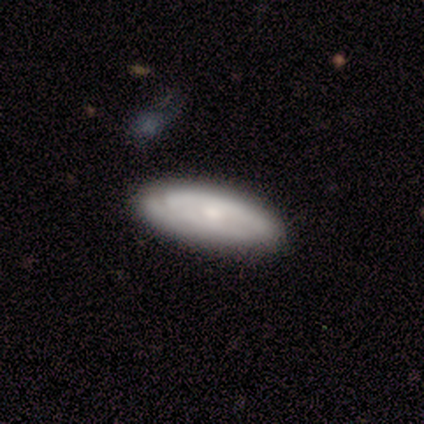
Smooth or featured?
  - featured or disk: 80% *
  - smooth: 20%
  - star or artifact: 0%
Edge-on disk?
  - no: 100% *
  - yes: 0%
Bar?
  - no: 75% *
  - strong: 25%
  - weak: 0%
Spiral arms?
  - yes: 100% *
  - no: 0%
Spiral winding?
  - tight: 50% * (tied)
  - medium: 50% * (tied)
  - loose: 0%
Spiral arm count?
  - can't tell: 75% *
  - 2: 25%
  - 1: 0%
  - 3: 0%
  - 4: 0%
  - more than 4: 0%
Bulge size?
  - moderate: 100% *
  - dominant: 0%
  - large: 0%
  - small: 0%
  - none: 0%
Merging?
  - none: 60% *
  - minor disturbance: 40%
  - major disturbance: 0%
  - merger: 0%